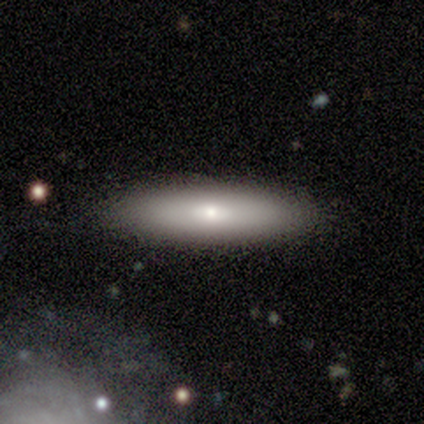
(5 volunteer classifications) Overall: smooth (100%). How rounded: cigar-shaped (60%; in between 40%). Merging: none (100%).